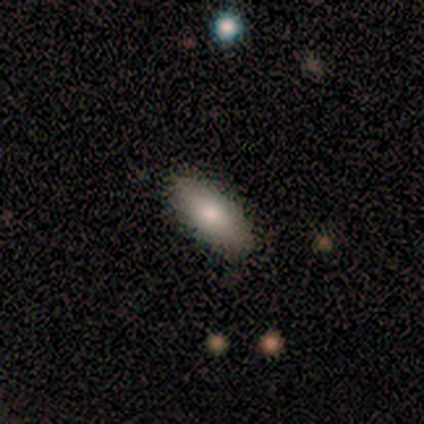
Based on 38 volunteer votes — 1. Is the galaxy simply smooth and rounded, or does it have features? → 79% smooth, 13% star or artifact, 8% featured or disk.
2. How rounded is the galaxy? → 83% in between, 17% cigar-shaped, 0% round.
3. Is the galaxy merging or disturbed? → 82% none, 9% minor disturbance, 9% major disturbance, 0% merger.